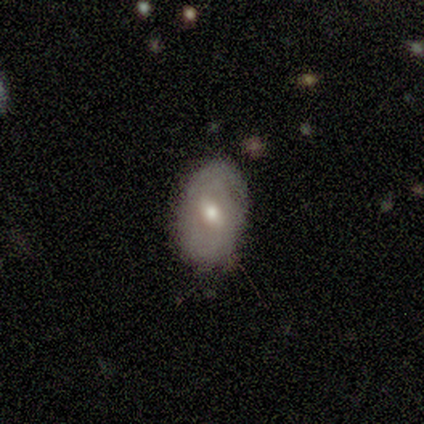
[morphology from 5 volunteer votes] Overall: featured or disk (80%). Edge-on disk: no (100%). Bar: weak (75%). Spiral arms: yes (50%, tied with no). Spiral arm count: 2 (50%, tied with can't tell). Spiral winding: tight (100%). Bulge size: moderate (100%). Merging: none (60%; minor disturbance 40%).